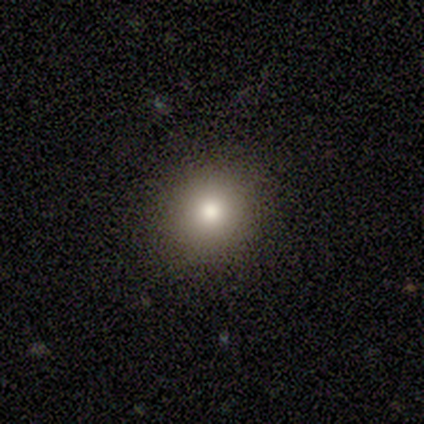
smooth 100%, featured or disk 0%, star or artifact 0%. Down the decision tree: how rounded — round (100%); merging — none (75%).